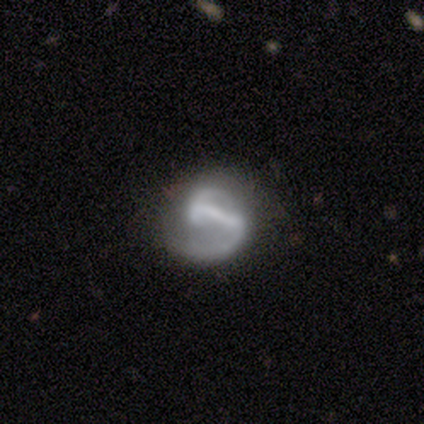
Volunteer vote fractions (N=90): Smooth or featured?
  - featured or disk: 88% *
  - smooth: 9%
  - star or artifact: 3%
Edge-on disk?
  - no: 99% *
  - yes: 1%
Bar?
  - strong: 78% *
  - weak: 17%
  - no: 5%
Spiral arms?
  - yes: 88% *
  - no: 12%
Spiral winding?
  - loose: 46% *
  - medium: 45%
  - tight: 9%
Spiral arm count?
  - 2: 72% *
  - 1: 20%
  - can't tell: 6%
  - 4: 1%
  - 3: 0%
  - more than 4: 0%
Bulge size?
  - none: 62% *
  - small: 23%
  - moderate: 12%
  - large: 4%
  - dominant: 0%
Merging?
  - none: 44% *
  - major disturbance: 29%
  - minor disturbance: 22%
  - merger: 6%